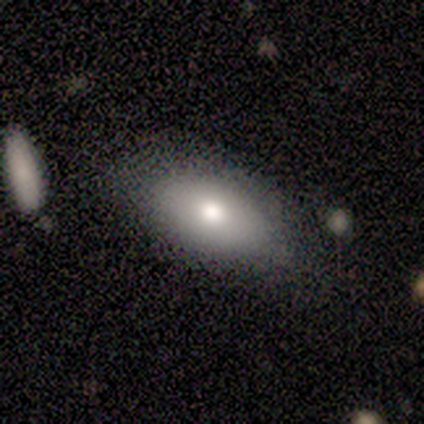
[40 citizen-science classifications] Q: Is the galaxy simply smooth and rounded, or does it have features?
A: smooth — 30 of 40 (75%).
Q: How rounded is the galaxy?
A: in between — 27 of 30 (90%).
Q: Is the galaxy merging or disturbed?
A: none — 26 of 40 (65%).